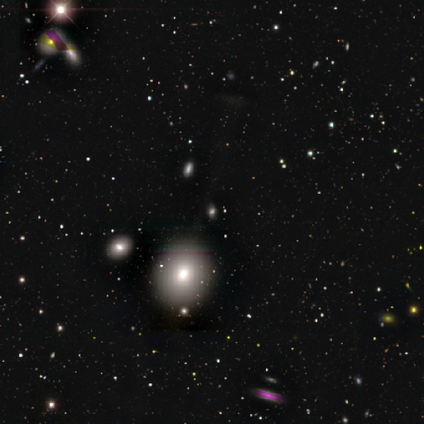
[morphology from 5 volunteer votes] type=smooth (60%); roundness=round (67%); merging=none (100%).